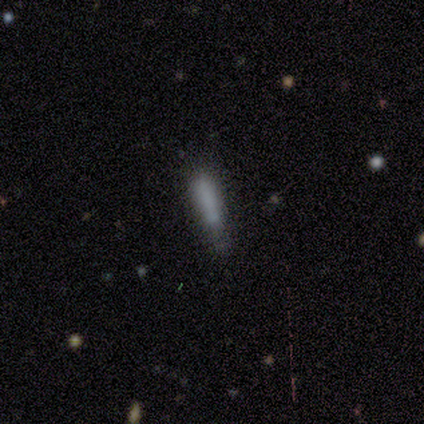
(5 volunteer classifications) Morphology: type=smooth (60%); roundness=cigar-shaped (67%); merging=none (50%, tied with minor disturbance).